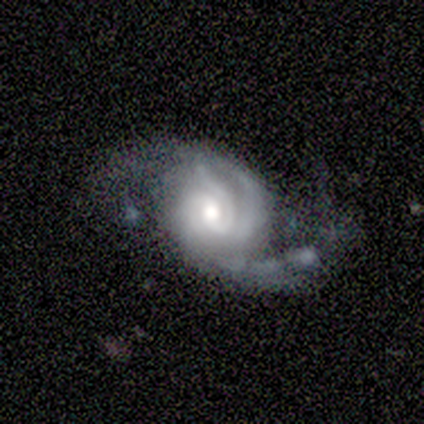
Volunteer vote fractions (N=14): smooth_or_featured: featured or disk (p=1.00)
disk_edge_on: no (p=1.00)
bar: no (p=0.79) [alt: strong p=0.14]
has_spiral_arms: yes (p=1.00)
spiral_winding: tight (p=0.64) [alt: loose p=0.21]
spiral_arm_count: 2 (p=0.36) [tied with: 3 p=0.36]
bulge_size: moderate (p=0.57) [alt: small p=0.36]
merging: major disturbance (p=0.43) [alt: none p=0.29]